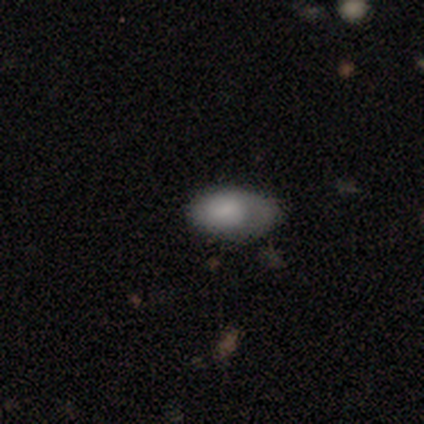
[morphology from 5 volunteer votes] smooth_or_featured: smooth (p=0.80) [alt: featured or disk p=0.20]
how_rounded: in between (p=1.00)
merging: none (p=0.60) [alt: minor disturbance p=0.40]